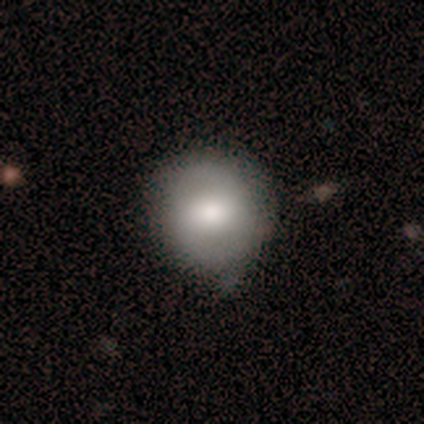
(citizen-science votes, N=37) Smooth or featured: smooth — 62% (featured or disk — 30%)
How rounded: round — 83% (in between — 13%)
Merging: none — 65% (minor disturbance — 24%)